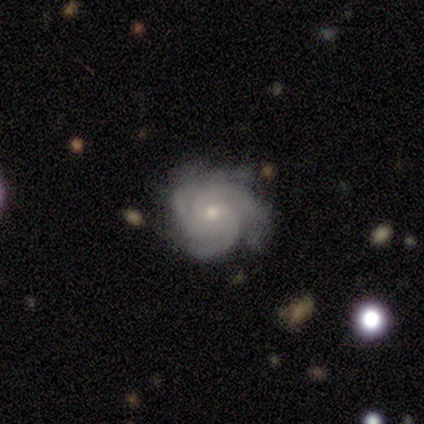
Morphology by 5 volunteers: A featured or disk galaxy (100%) with no bar (60%), 4 (60%) tight (60%) spiral arms (100%) and a small central bulge (100%). Merging: none (60%).